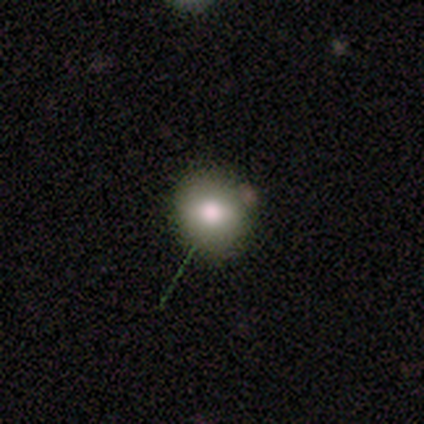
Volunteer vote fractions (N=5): This is likely a smooth galaxy (60%). How rounded: likely in between (67%). Merging: marginally none (33%, tied with minor disturbance and major disturbance).